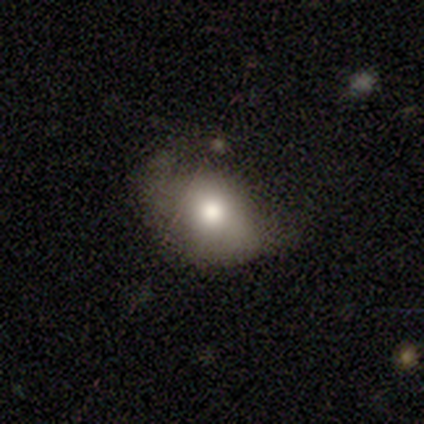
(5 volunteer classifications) Volunteers were most divided on "how rounded" (2-way tie): round: 50%, in between: 50%, cigar-shaped: 0%. More confident: smooth or featured — smooth (80%); merging — none (75%).